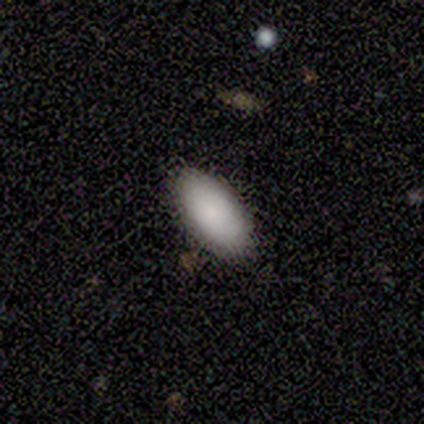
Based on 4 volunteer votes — Morphology: type=smooth (100%); roundness=in between (100%); merging=none (100%).